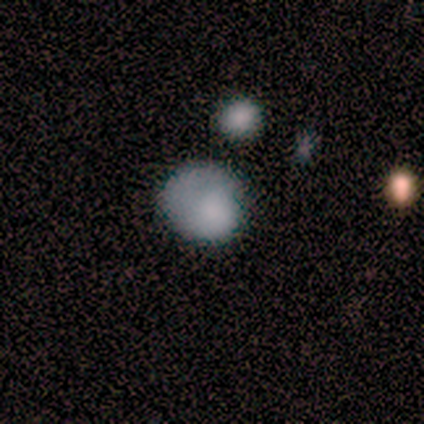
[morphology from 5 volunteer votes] This is clearly a smooth galaxy (100%). How rounded: clearly round (100%). Merging: likely none (60%).